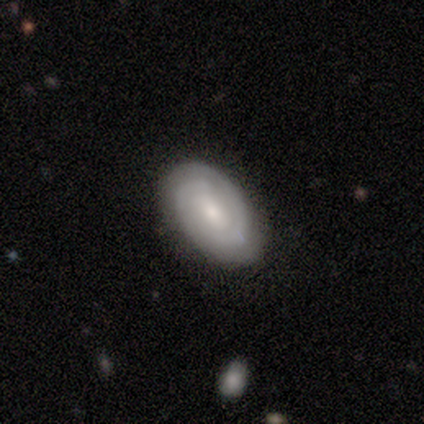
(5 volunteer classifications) A featured or disk galaxy (100%) with a weak bar (60%), 2 (60%) tight (60%) spiral arms (100%) and a small central bulge (80%). Merging: none (100%).